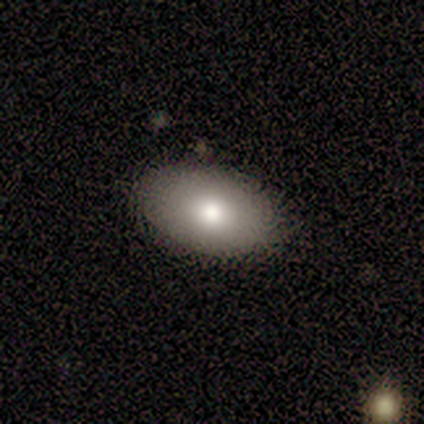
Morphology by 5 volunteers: type=smooth (60%); roundness=in between (100%); merging=none (100%).